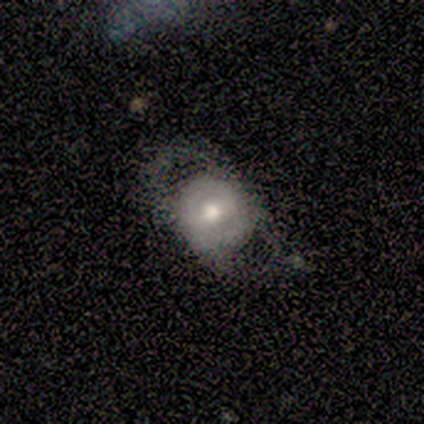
Smooth or featured: smooth — 60% (featured or disk — 20%)
How rounded: round — 67% (in between — 33%)
Merging: none — 50% (minor disturbance — 25%)